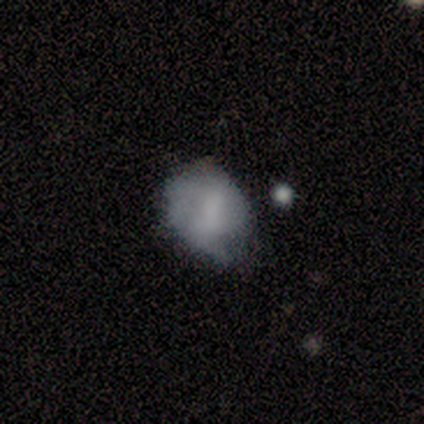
Overall: smooth (60%; featured or disk 40%). How rounded: round (67%; in between 33%). Merging: minor disturbance (80%).